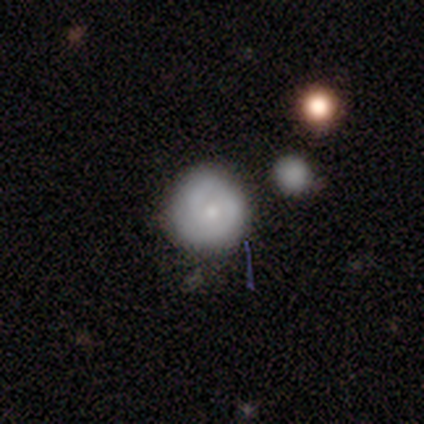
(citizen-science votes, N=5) Smooth or featured: featured or disk — 60% (smooth — 40%)
Edge-on disk: no — 100%
Bar: no — 67% (weak — 33%)
Spiral arms: yes — 100%
Spiral winding: medium — 67% (tight — 33%)
Spiral arm count: 2 — 67% (can't tell — 33%)
Bulge size: moderate — 67% (small — 33%)
Merging: none — 100%